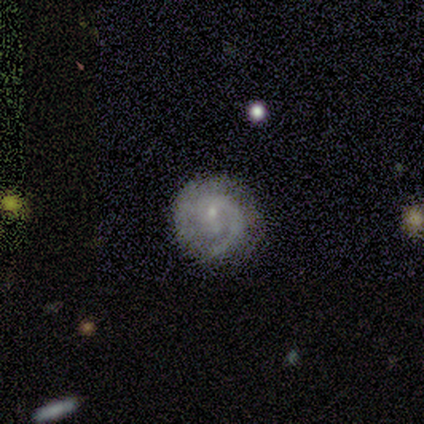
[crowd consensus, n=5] Smooth or featured?
  - featured or disk: 60% *
  - smooth: 20%
  - star or artifact: 20%
Edge-on disk?
  - no: 100% *
  - yes: 0%
Bar?
  - weak: 67% *
  - no: 33%
  - strong: 0%
Spiral arms?
  - yes: 100% *
  - no: 0%
Spiral winding?
  - tight: 67% *
  - medium: 33%
  - loose: 0%
Spiral arm count?
  - 1: 67% *
  - can't tell: 33%
  - 2: 0%
  - 3: 0%
  - 4: 0%
  - more than 4: 0%
Bulge size?
  - moderate: 67% *
  - small: 33%
  - dominant: 0%
  - large: 0%
  - none: 0%
Merging?
  - none: 100% *
  - minor disturbance: 0%
  - major disturbance: 0%
  - merger: 0%